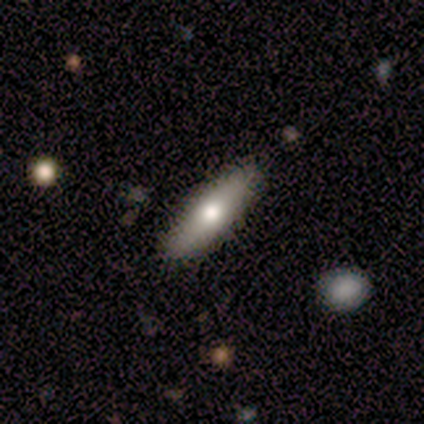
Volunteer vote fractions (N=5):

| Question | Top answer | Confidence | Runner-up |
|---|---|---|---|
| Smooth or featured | smooth | 100% | — |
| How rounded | cigar-shaped | 60% | in between (40%) |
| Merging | none | 80% | minor disturbance (20%) |